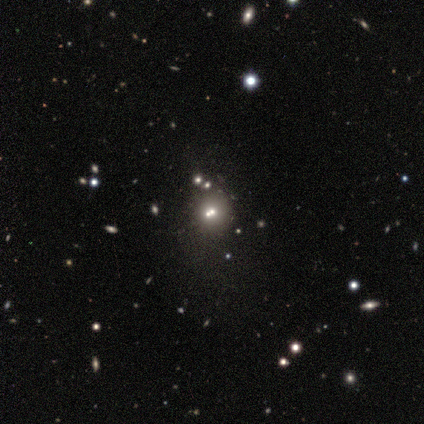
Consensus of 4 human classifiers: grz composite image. It shows a smooth galaxy with no disk features (50%, tied with star or artifact) that is round (100%). Merging: none (50%, tied with merger).